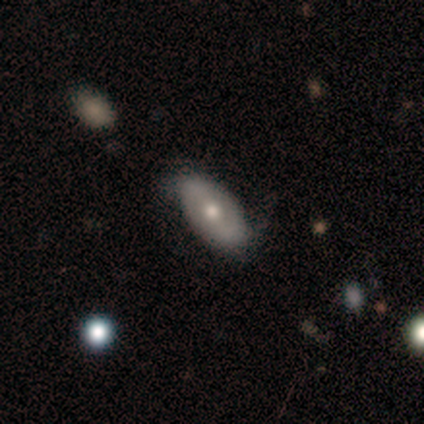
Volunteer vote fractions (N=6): This appears to be a smooth galaxy with no disk features (50%, tied with featured or disk) that is in between round and cigar-shaped (100%). Merging: none (50%).